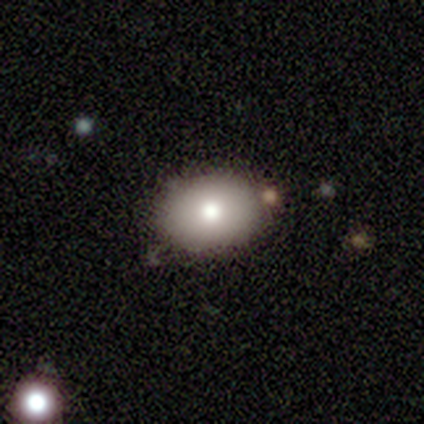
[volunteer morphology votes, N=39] A smooth galaxy with no disk features (79%) that is in between round and cigar-shaped (74%). Merging: none (86%).